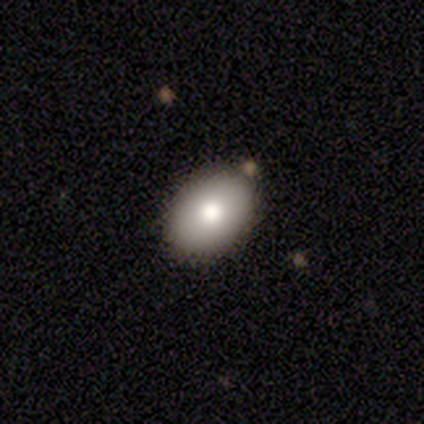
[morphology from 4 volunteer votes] Overall: smooth (75%). How rounded: round (67%; in between 33%). Merging: none (100%).